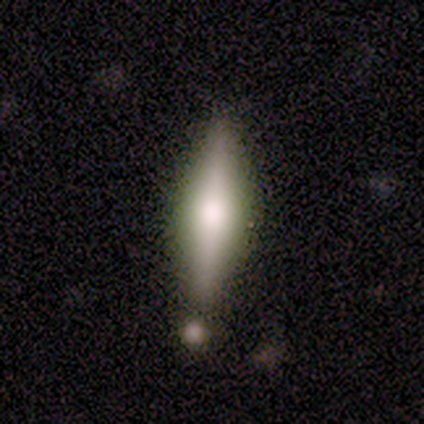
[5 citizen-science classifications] smooth-or-featured: smooth: 60% | featured or disk: 40% | star or artifact: 0%
  how-rounded: in between: 100% | round: 0% | cigar-shaped: 0%
  merging: none: 60% | merger: 40% | minor disturbance: 0% | major disturbance: 0%